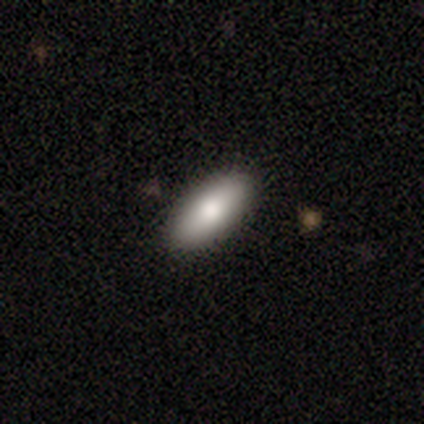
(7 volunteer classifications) A smooth galaxy with no disk features (71%) that is in between round and cigar-shaped (80%). Merging: none (100%).